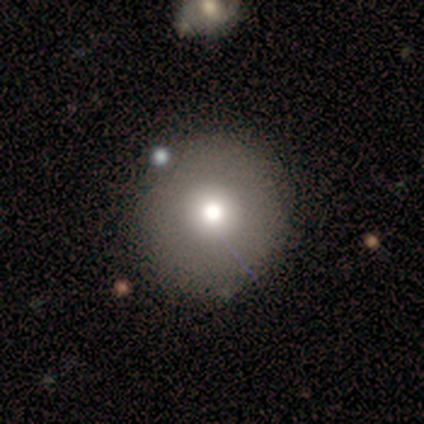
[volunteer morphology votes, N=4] Smooth or featured? 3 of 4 (75%) said smooth. How rounded? 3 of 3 (100%) said round. Merging? 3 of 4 (75%) said none.